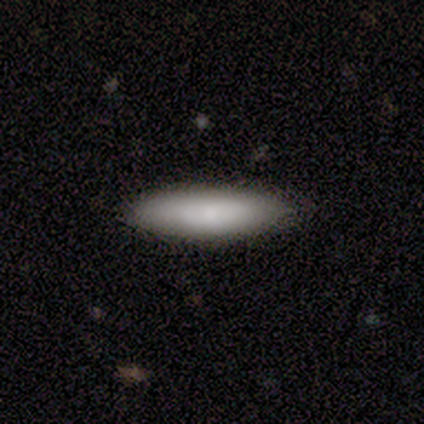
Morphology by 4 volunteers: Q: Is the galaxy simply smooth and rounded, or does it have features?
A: smooth — 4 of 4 (100%).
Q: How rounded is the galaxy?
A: in between — 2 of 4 (50%, tied with cigar-shaped).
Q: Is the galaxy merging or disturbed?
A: none — 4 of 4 (100%).